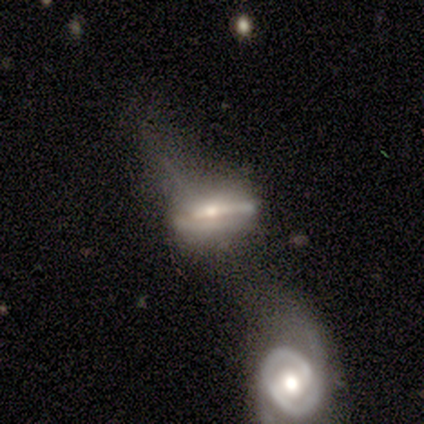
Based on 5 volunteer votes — This appears to be a featured or disk galaxy (100%) with no bar (75%), loose (100%) spiral arms (50%, tied with no) and a moderate central bulge (50%, tied with small). Merging: merger (60%).